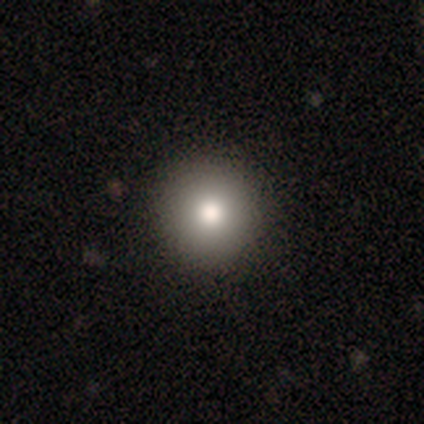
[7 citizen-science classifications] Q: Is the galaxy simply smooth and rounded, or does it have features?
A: smooth — 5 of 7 (71%).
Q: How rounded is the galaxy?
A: round — 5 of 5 (100%).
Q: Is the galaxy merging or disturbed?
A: none — 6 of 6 (100%).